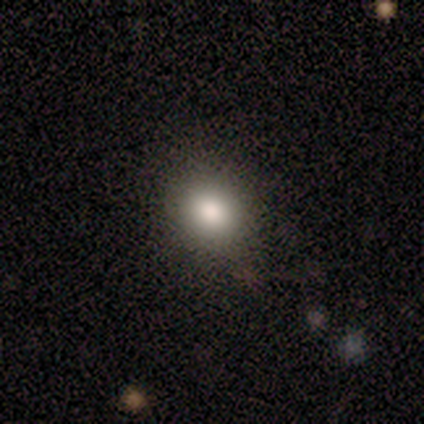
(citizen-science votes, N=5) smooth 80%, star or artifact 20%, featured or disk 0%. Down the decision tree: how rounded — round (75%); merging — none (100%).